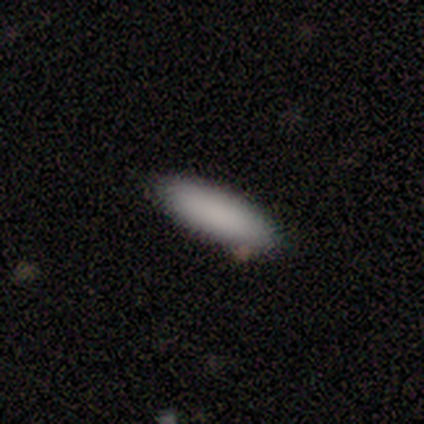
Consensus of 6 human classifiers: This is clearly a smooth galaxy (83%). How rounded: likely cigar-shaped (60%). Merging: clearly none (100%).